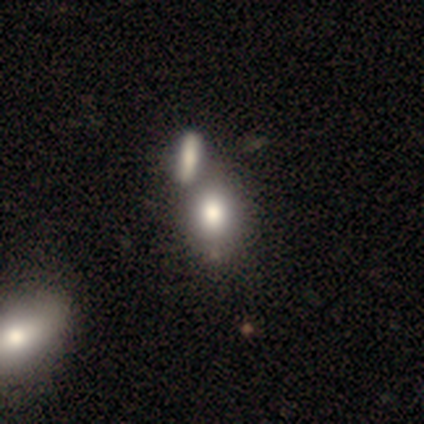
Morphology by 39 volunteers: This appears to be a smooth galaxy with no disk features (82%) that is in between round and cigar-shaped (62%). Merging: merger (51%).